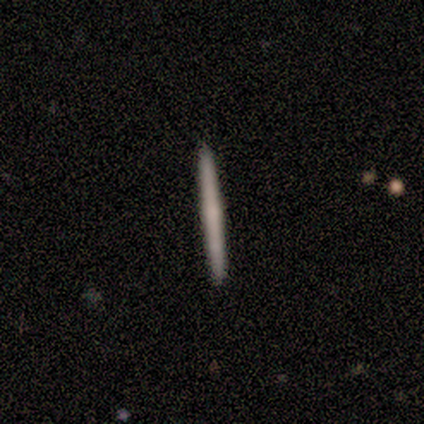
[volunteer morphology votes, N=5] A smooth galaxy with no disk features (60%) that is cigar-shaped (100%).

Vote fractions:
- Smooth or featured? smooth: 60% / featured or disk: 40% / star or artifact: 0%
- How rounded? cigar-shaped: 100% / round: 0% / in between: 0%
- Merging? none: 100% / minor disturbance: 0% / major disturbance: 0% / merger: 0%